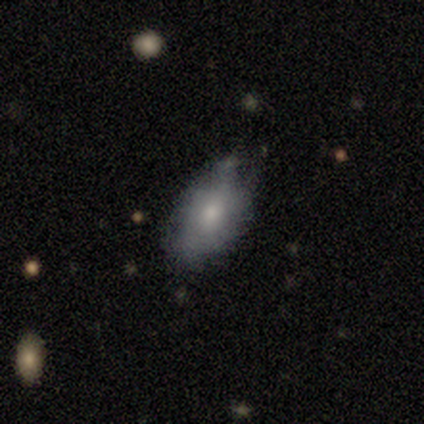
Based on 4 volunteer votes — Smooth or featured? 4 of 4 (100%) said smooth. How rounded? 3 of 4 (75%) said in between. Merging? 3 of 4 (75%) said none.